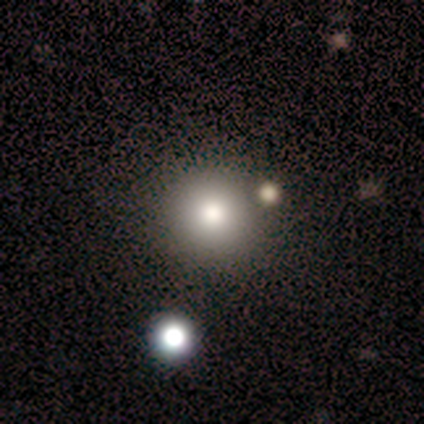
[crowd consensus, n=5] Smooth or featured?
  - smooth: 60% *
  - featured or disk: 20%
  - star or artifact: 20%
How rounded?
  - round: 100% *
  - in between: 0%
  - cigar-shaped: 0%
Merging?
  - none: 100% *
  - minor disturbance: 0%
  - major disturbance: 0%
  - merger: 0%